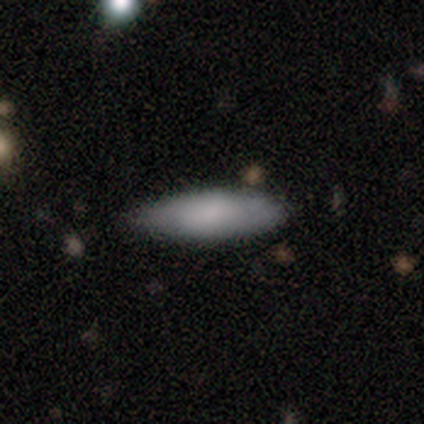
This is likely a featured or disk galaxy (60%). It is likely not viewed edge-on (67%). Bar: clearly no (100%). Spiral arm pattern: clearly no (100%). Central bulge: possibly dominant (50%, tied with moderate). Merging: clearly none (80%).